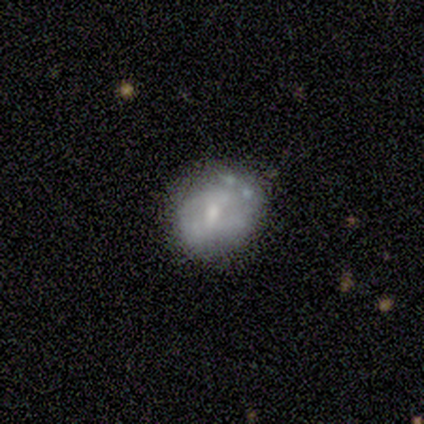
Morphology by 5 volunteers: type=smooth (60%); roundness=round (100%); merging=none (60%).